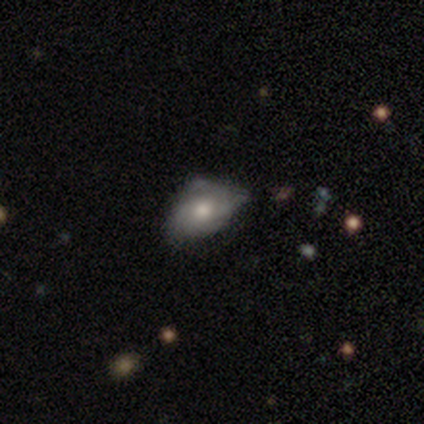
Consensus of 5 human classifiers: Smooth or featured?
  - smooth: 80% *
  - featured or disk: 20%
  - star or artifact: 0%
How rounded?
  - in between: 75% *
  - round: 25%
  - cigar-shaped: 0%
Merging?
  - minor disturbance: 60% *
  - none: 20%
  - major disturbance: 20%
  - merger: 0%